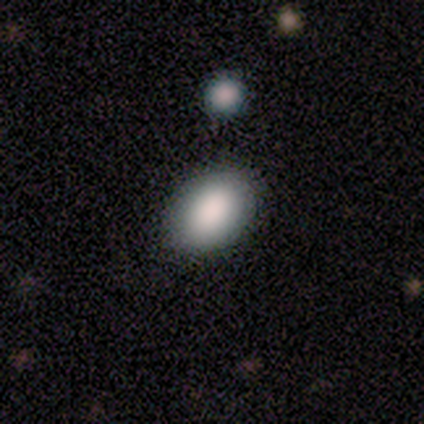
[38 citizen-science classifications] Smooth or featured? smooth (92%)
How rounded? in between (77%)
Merging? none (97%)